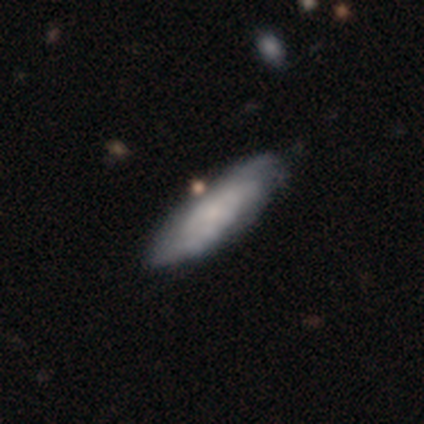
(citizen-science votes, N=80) smooth_or_featured: featured or disk (p=0.59) [alt: smooth p=0.40]
disk_edge_on: no (p=0.68) [alt: yes p=0.32]
bar: no (p=0.78) [alt: weak p=0.19]
has_spiral_arms: yes (p=0.81) [alt: no p=0.19]
spiral_winding: tight (p=0.62) [alt: medium p=0.31]
spiral_arm_count: can't tell (p=0.69) [alt: 2 p=0.12]
bulge_size: small (p=0.44) [alt: none p=0.41]
merging: none (p=0.35) [alt: minor disturbance p=0.11]